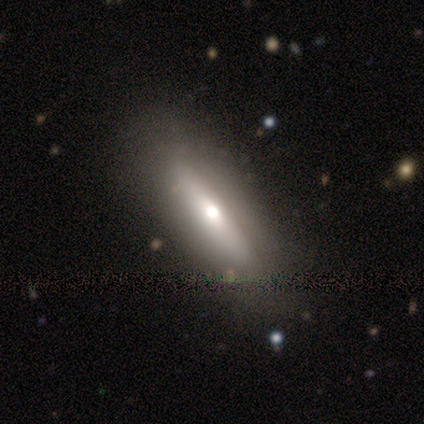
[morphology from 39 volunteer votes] This appears to be a featured or disk galaxy (59%) viewed edge-on (70%) with a rounded central bulge (69%). Merging: none (67%).